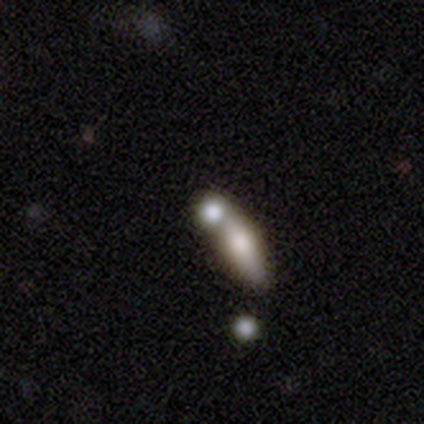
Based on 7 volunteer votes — Q: Smooth or featured?
A: smooth (71%); runner-up: featured or disk (14%)
Q: How rounded?
A: in between (60%); runner-up: round (40%)
Q: Merging?
A: merger (67%); runner-up: none (33%)